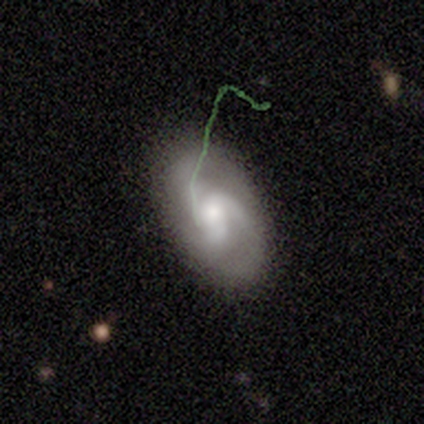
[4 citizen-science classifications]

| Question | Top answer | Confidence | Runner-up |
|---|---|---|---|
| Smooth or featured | featured or disk | 50% | smooth (25%) |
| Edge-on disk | no | 100% | — |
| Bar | no | 100% | — |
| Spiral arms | yes | 100% | — |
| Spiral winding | medium | 50% | tied: loose (50%) |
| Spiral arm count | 3 | 100% | — |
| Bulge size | large | 50% | tied: moderate (50%) |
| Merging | none | 100% | — |